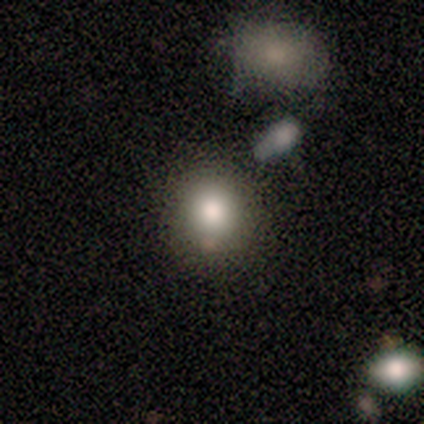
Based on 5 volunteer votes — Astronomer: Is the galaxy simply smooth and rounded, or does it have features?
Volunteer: smooth — 80%.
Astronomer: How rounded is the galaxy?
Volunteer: round — 75%.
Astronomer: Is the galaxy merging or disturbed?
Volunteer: none — 80%.